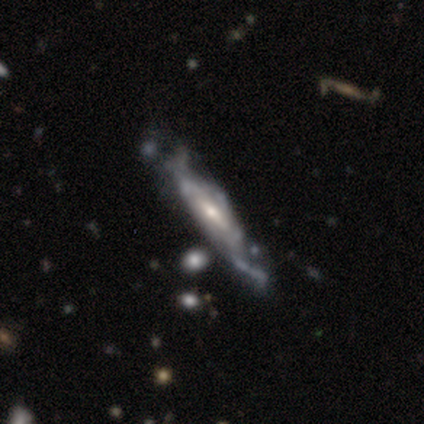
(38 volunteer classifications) Morphology: type=featured or disk (82%); edge-on=no (61%); bar=weak (53%); spiral arms=yes (68%); winding=medium (62%); arm count=can't tell (69%); bulge=small (63%); merging=none (46%).